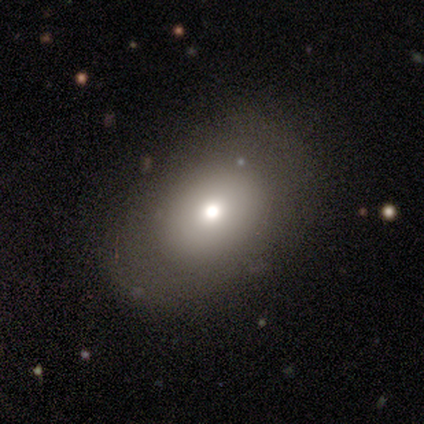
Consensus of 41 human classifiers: Smooth or featured?
  - smooth: 68% *
  - featured or disk: 20%
  - star or artifact: 12%
How rounded?
  - in between: 64% *
  - round: 36%
  - cigar-shaped: 0%
Merging?
  - none: 72% *
  - minor disturbance: 14%
  - major disturbance: 14%
  - merger: 0%